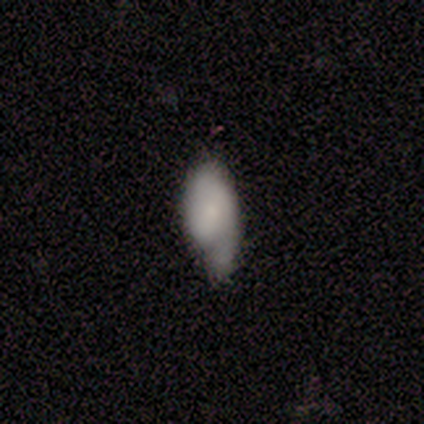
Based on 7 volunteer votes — Smooth or featured: smooth — 71% (featured or disk — 14%)
How rounded: in between — 100%
Merging: minor disturbance — 83% (major disturbance — 17%)